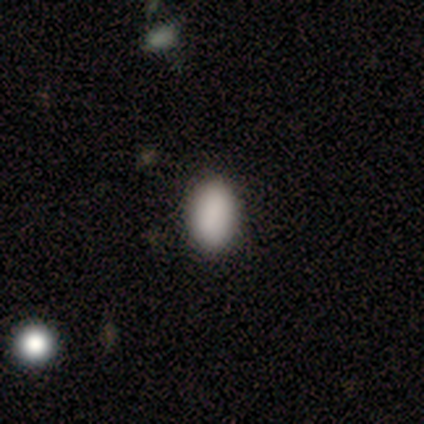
smooth_or_featured: smooth (p=0.80) [alt: star or artifact p=0.20]
how_rounded: in between (p=1.00)
merging: none (p=1.00)